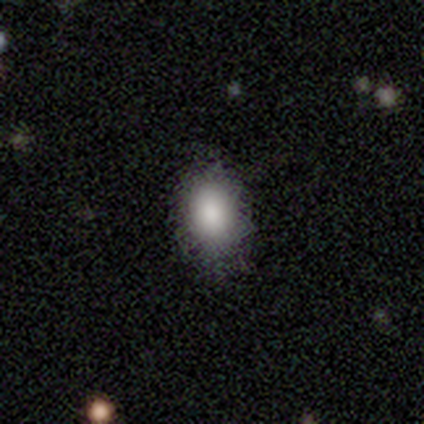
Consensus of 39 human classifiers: This appears to be a smooth galaxy with no disk features (82%) that is in between round and cigar-shaped (75%). Merging: none (90%).